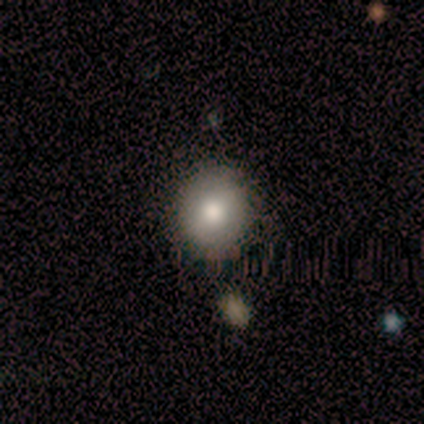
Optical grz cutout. It shows a smooth galaxy with no disk features (100%) that is round (100%). Merging: none (80%).